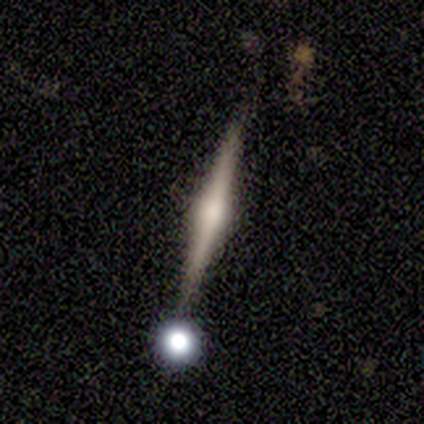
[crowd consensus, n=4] Smooth or featured? featured or disk (100%)
Edge-on disk? yes (75%)
Edge-on bulge? rounded (67%)
Merging? none (50%)